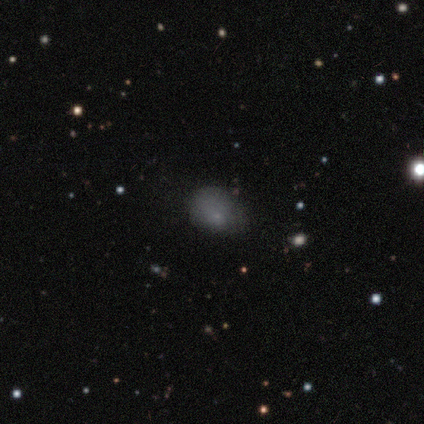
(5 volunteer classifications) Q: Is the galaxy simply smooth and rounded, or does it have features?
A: smooth — 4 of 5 (80%).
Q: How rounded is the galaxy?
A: in between — 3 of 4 (75%).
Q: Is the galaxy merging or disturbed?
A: minor disturbance — 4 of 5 (80%).